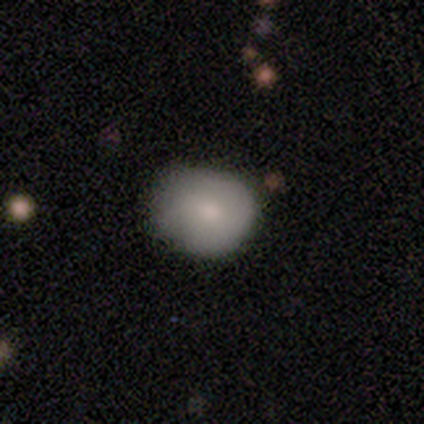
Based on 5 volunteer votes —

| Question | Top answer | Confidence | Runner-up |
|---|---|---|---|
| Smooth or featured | smooth | 80% | star or artifact (20%) |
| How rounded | in between | 75% | round (25%) |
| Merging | none | 50% | minor disturbance (25%) |